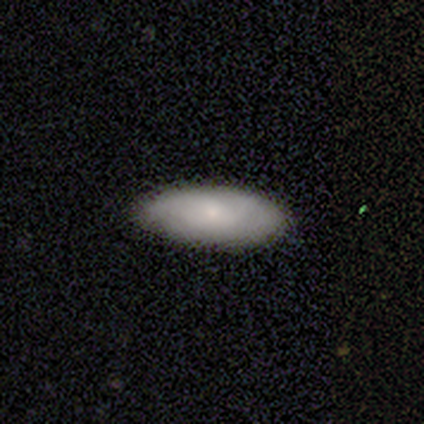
A smooth galaxy with no disk features (69%) that is in between round and cigar-shaped (91%). Merging: none (87%).